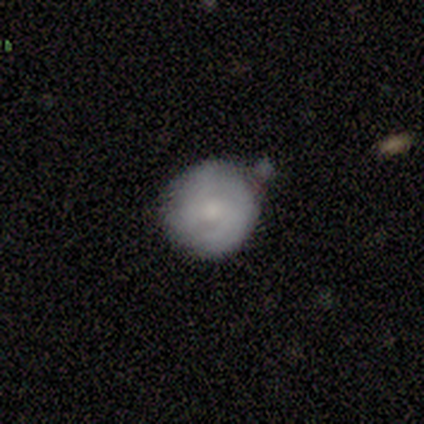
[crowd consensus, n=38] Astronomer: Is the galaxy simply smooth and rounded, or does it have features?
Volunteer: smooth — 63%.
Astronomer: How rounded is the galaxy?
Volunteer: round — 92%.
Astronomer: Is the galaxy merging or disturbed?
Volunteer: none — 67%.